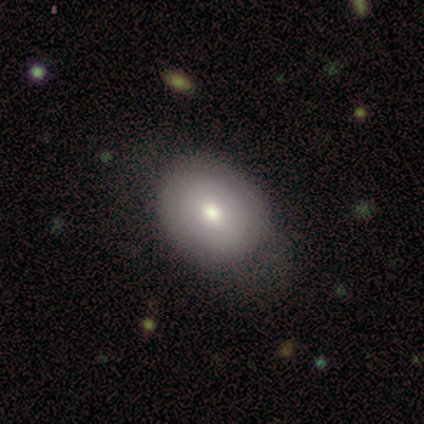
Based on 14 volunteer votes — Smooth or featured? smooth (64%)
How rounded? in between (67%)
Merging? none (92%)